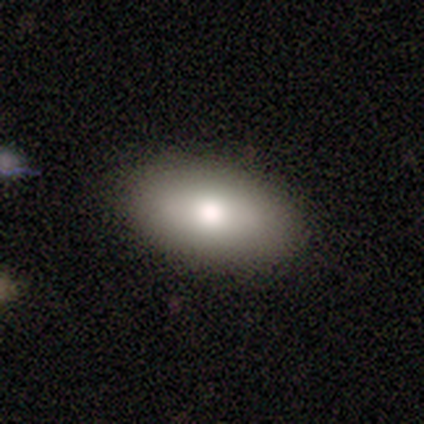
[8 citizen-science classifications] Smooth or featured? smooth (88%)
How rounded? in between (100%)
Merging? minor disturbance (57%)